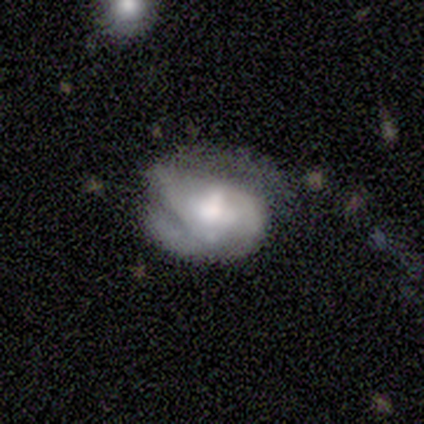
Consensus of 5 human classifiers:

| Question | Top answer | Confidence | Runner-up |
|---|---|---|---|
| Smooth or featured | featured or disk | 60% | smooth (40%) |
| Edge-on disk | no | 100% | — |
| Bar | weak | 67% | no (33%) |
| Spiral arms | yes | 100% | — |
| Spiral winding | tight | 33% | tied: medium (33%), loose (33%) |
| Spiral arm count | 1 | 33% | tied: 2 (33%), can't tell (33%) |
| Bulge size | moderate | 67% | small (33%) |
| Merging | minor disturbance | 40% | tied: major disturbance (40%) |